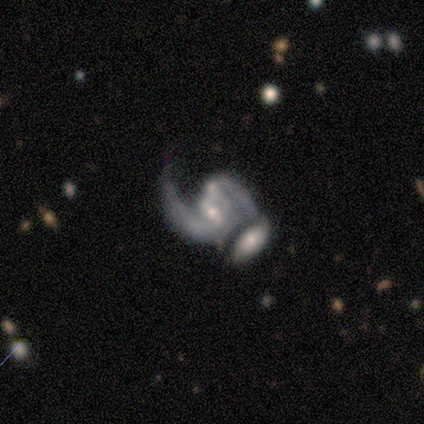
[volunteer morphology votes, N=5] A featured or disk galaxy (100%) with a strong bar (40%, tied with weak), 2 (80%) loose (60%) spiral arms (100%) and a moderate central bulge (100%).

Vote fractions:
- Smooth or featured? featured or disk: 100% / smooth: 0% / star or artifact: 0%
- Edge-on disk? no: 100% / yes: 0%
- Bar? strong: 40% (tied) / weak: 40% (tied) / no: 20%
- Spiral arms? yes: 100% / no: 0%
- Spiral winding? loose: 60% / medium: 40% / tight: 0%
- Spiral arm count? 2: 80% / 1: 20% / 3: 0% / 4: 0% / more than 4: 0% / can't tell: 0%
- Bulge size? moderate: 100% / dominant: 0% / large: 0% / small: 0% / none: 0%
- Merging? merger: 60% / none: 20% / minor disturbance: 20% / major disturbance: 0%